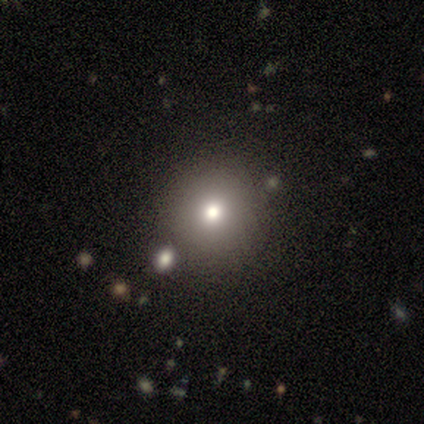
A smooth galaxy with no disk features (40%, tied with featured or disk) that is round (100%). Merging: none (100%).